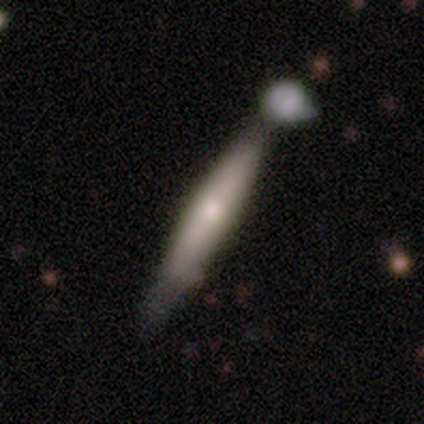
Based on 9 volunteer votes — Smooth or featured?
  - featured or disk: 56% *
  - smooth: 44%
  - star or artifact: 0%
Edge-on disk?
  - yes: 100% *
  - no: 0%
Edge-on bulge?
  - none: 40% * (tied)
  - rounded: 40% * (tied)
  - boxy: 20%
Merging?
  - none: 44% *
  - merger: 33%
  - minor disturbance: 22%
  - major disturbance: 0%